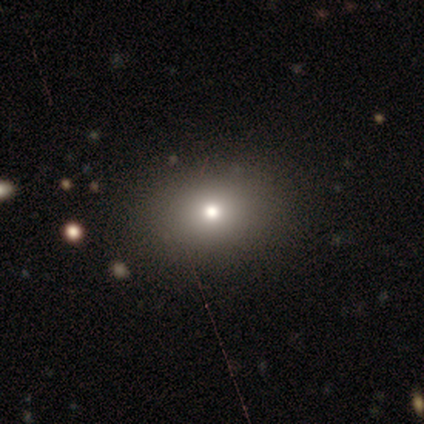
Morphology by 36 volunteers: Q: Smooth or featured?
A: smooth (67%); runner-up: featured or disk (19%)
Q: How rounded?
A: round (54%); runner-up: in between (46%)
Q: Merging?
A: none (81%); runner-up: minor disturbance (10%)